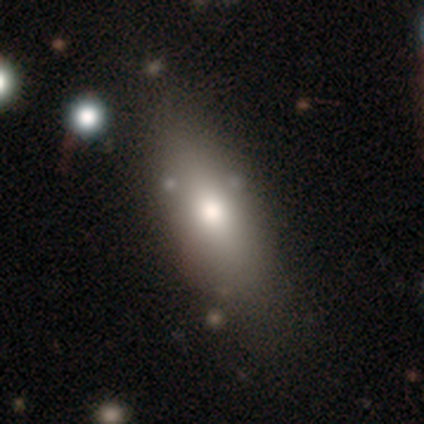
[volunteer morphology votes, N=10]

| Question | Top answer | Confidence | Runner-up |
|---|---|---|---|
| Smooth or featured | smooth | 80% | featured or disk (20%) |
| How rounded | in between | 62% | cigar-shaped (38%) |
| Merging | none | 80% | minor disturbance (20%) |